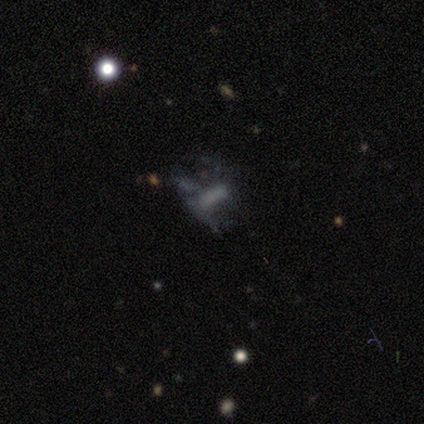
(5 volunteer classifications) A smooth galaxy with no disk features (40%, tied with star or artifact) that is cigar-shaped (100%).

Vote fractions:
- Smooth or featured? smooth: 40% (tied) / star or artifact: 40% (tied) / featured or disk: 20%
- How rounded? cigar-shaped: 100% / round: 0% / in between: 0%
- Merging? none: 67% / major disturbance: 33% / minor disturbance: 0% / merger: 0%